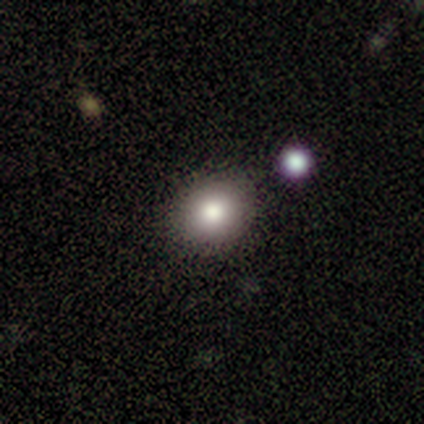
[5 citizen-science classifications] Smooth or featured? 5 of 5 (100%) said smooth. How rounded? 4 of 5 (80%) said round. Merging? 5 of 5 (100%) said none.